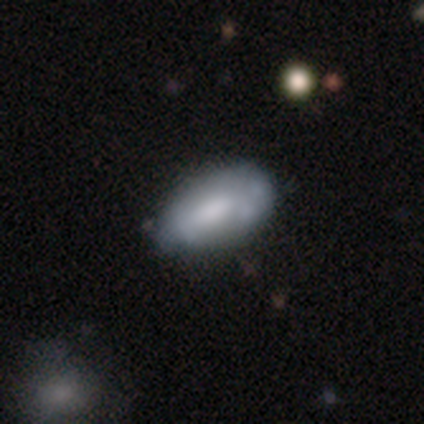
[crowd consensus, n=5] Volunteers were most divided on "smooth or featured": smooth: 60%, featured or disk: 40%, star or artifact: 0%. More confident: how rounded — in between (100%); merging — minor disturbance (60%).